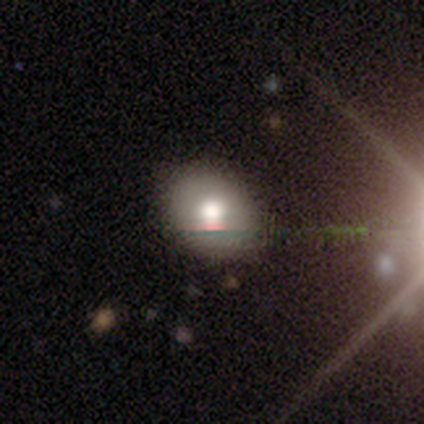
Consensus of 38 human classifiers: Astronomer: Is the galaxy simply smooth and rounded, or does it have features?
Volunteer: smooth — 71%.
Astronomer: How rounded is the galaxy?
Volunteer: in between — 74%.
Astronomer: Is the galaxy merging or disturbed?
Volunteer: none — 80%.